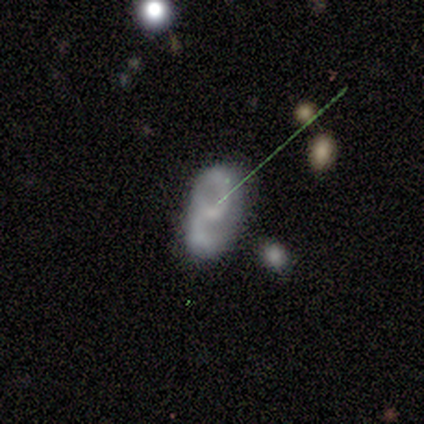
smooth_or_featured: featured or disk (p=0.83) [alt: smooth p=0.17]
disk_edge_on: no (p=1.00)
bar: weak (p=0.40) [tied with: no p=0.40]
has_spiral_arms: yes (p=1.00)
spiral_winding: medium (p=0.80) [alt: tight p=0.20]
spiral_arm_count: 2 (p=1.00)
bulge_size: small (p=0.60) [alt: moderate p=0.20]
merging: minor disturbance (p=0.50) [alt: none p=0.33]